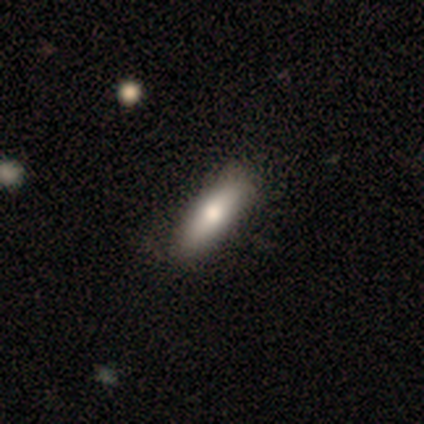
Smooth or featured? smooth (78%)
How rounded? in between (68%)
Merging? none (51%)